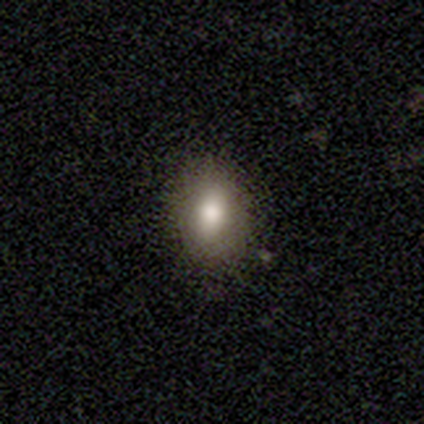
This appears to be a smooth galaxy with no disk features (100%) that is in between round and cigar-shaped (60%). Merging: none (60%).